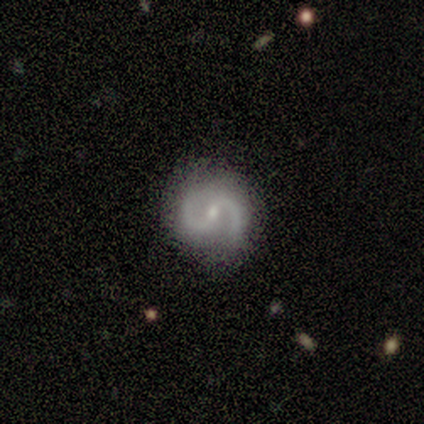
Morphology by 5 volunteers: Smooth or featured? 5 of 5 (100%) said featured or disk. Edge-on disk? 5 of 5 (100%) said no. Bar? 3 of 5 (60%) said no. Spiral arms? 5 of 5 (100%) said yes. Spiral winding? 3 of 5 (60%) said medium. Spiral arm count? 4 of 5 (80%) said 2. Bulge size? 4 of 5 (80%) said small. Merging? 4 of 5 (80%) said none.